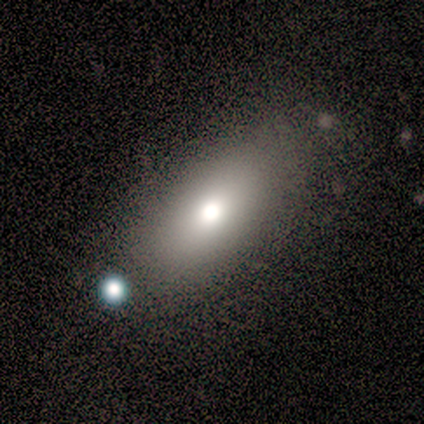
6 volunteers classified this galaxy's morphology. A smooth galaxy with no disk features (83%) that is in between round and cigar-shaped (80%). Merging: none (40%, tied with major disturbance).